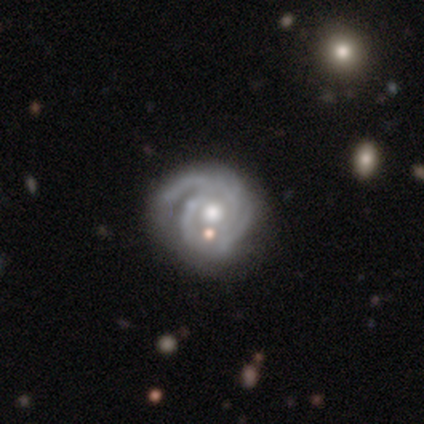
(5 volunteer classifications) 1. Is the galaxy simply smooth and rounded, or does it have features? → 100% featured or disk, 0% smooth, 0% star or artifact.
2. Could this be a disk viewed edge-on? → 100% no, 0% yes.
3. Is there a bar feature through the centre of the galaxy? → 100% no, 0% strong, 0% weak.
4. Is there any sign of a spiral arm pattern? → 100% yes, 0% no.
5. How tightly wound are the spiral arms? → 60% medium, 40% tight, 0% loose.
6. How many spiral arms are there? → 40% 2 (tied), 40% 4 (tied), 20% 3, 0% 1, 0% more than 4, 0% can't tell.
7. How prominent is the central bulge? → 100% moderate, 0% dominant, 0% large, 0% small, 0% none.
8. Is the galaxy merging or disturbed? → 80% none, 20% minor disturbance, 0% major disturbance, 0% merger.